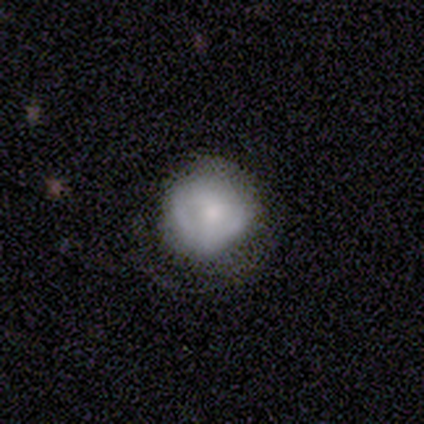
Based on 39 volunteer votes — Q: Smooth or featured?
A: smooth (69%); runner-up: featured or disk (23%)
Q: How rounded?
A: round (89%); runner-up: in between (11%)
Q: Merging?
A: none (67%); runner-up: minor disturbance (17%)